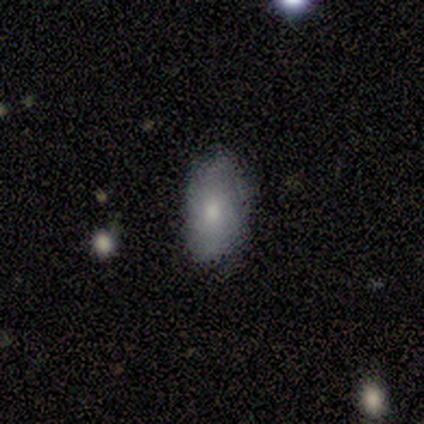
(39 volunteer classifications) smooth 74%, featured or disk 21%, star or artifact 5%. Down the decision tree: how rounded — in between (86%); merging — none (68%).